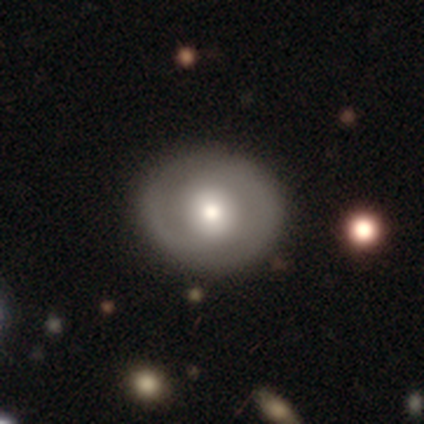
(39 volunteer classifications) Q: Smooth or featured?
A: featured or disk (51%); runner-up: smooth (44%)
Q: Edge-on disk?
A: no (100%)
Q: Bar?
A: no (75%); runner-up: weak (15%)
Q: Spiral arms?
A: yes (70%); runner-up: no (30%)
Q: Spiral winding?
A: medium (64%); runner-up: tight (21%)
Q: Spiral arm count?
A: 2 (86%); runner-up: 1 (7%)
Q: Bulge size?
A: moderate (70%); runner-up: large (15%)
Q: Merging?
A: none (86%); runner-up: major disturbance (8%)